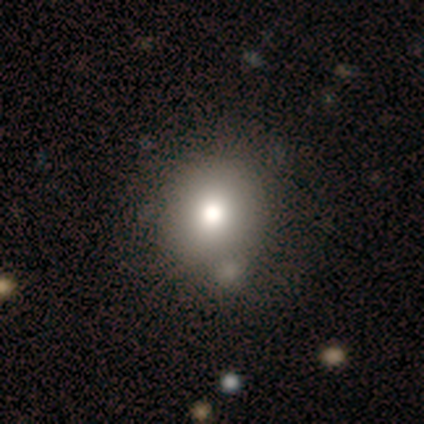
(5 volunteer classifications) Smooth or featured?
  - smooth: 60% *
  - star or artifact: 40%
  - featured or disk: 0%
How rounded?
  - round: 67% *
  - in between: 33%
  - cigar-shaped: 0%
Merging?
  - none: 67% *
  - minor disturbance: 33%
  - major disturbance: 0%
  - merger: 0%